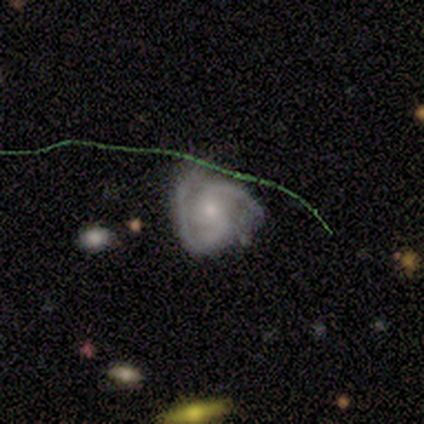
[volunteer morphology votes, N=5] Overall: featured or disk (80%). Edge-on disk: no (100%). Bar: no (75%). Spiral arms: yes (100%). Spiral arm count: 2 (50%; 3 25%). Spiral winding: medium (50%, tied with loose). Bulge size: small (75%). Merging: major disturbance (60%; none 20%).